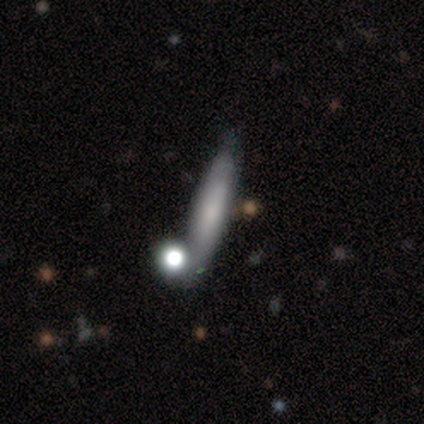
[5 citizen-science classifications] A smooth galaxy with no disk features (60%) that is cigar-shaped (100%).

Vote fractions:
- Smooth or featured? smooth: 60% / featured or disk: 40% / star or artifact: 0%
- How rounded? cigar-shaped: 100% / round: 0% / in between: 0%
- Merging? none: 60% / minor disturbance: 40% / major disturbance: 0% / merger: 0%